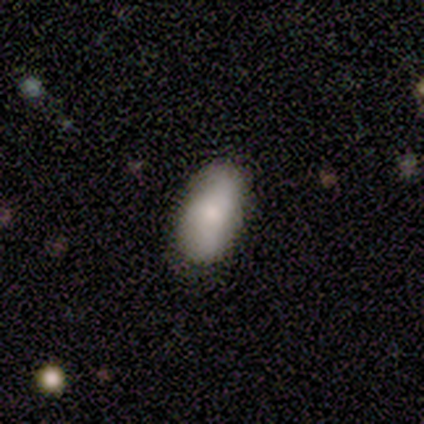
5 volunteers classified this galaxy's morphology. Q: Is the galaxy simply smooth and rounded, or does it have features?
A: smooth — 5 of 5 (100%).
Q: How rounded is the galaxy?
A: in between — 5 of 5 (100%).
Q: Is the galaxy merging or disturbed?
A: none — 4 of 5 (80%).